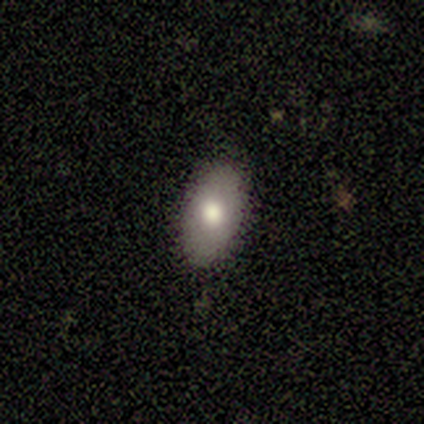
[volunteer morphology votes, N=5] Q: Smooth or featured?
A: smooth (80%); runner-up: featured or disk (20%)
Q: How rounded?
A: in between (100%)
Q: Merging?
A: none (100%)